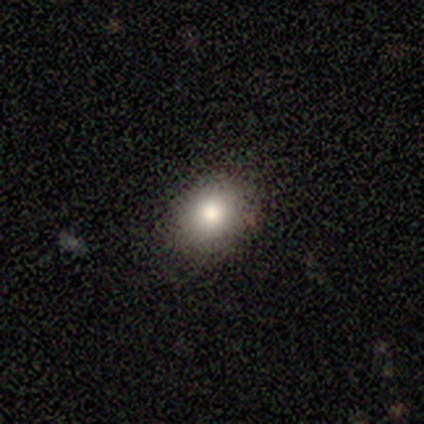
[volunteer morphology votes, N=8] A smooth galaxy with no disk features (88%) that is round (71%).

Vote fractions:
- Smooth or featured? smooth: 88% / featured or disk: 12% / star or artifact: 0%
- How rounded? round: 71% / in between: 29% / cigar-shaped: 0%
- Merging? none: 100% / minor disturbance: 0% / major disturbance: 0% / merger: 0%